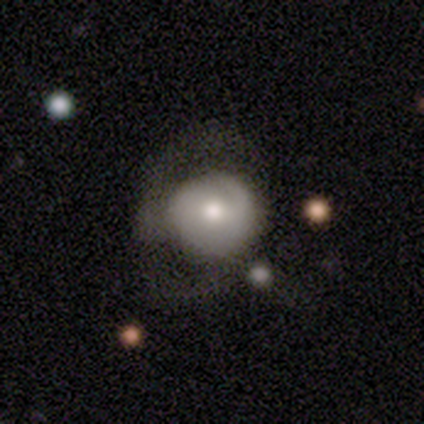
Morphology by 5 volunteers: Q: Smooth or featured?
A: smooth (100%)
Q: How rounded?
A: round (60%); runner-up: in between (40%)
Q: Merging?
A: none (40%); tied with: minor disturbance (40%)